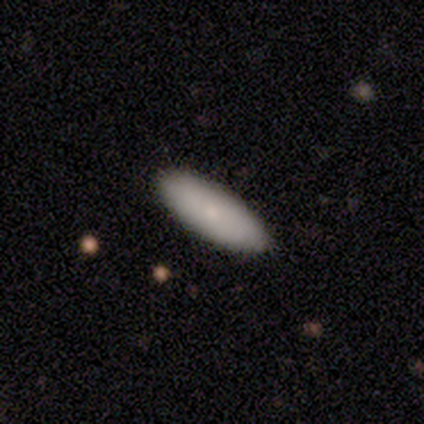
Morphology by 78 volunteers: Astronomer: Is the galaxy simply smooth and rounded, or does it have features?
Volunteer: smooth — 85%.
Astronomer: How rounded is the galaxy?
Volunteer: in between — 79%.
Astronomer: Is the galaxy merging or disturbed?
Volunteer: none — 51%.